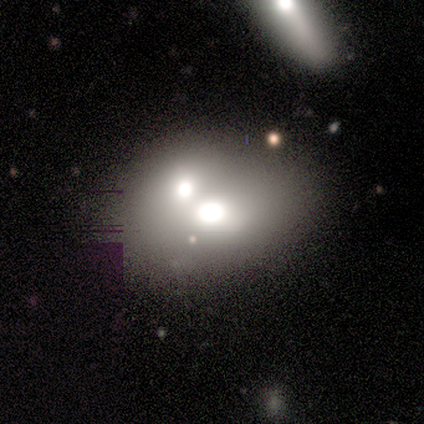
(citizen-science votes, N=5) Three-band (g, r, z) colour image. It shows a smooth galaxy with no disk features (60%) that is round (100%). Merging: merger (80%).